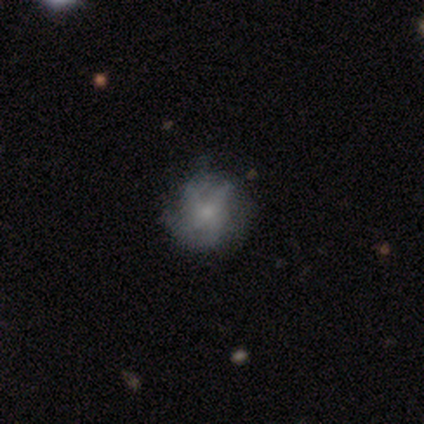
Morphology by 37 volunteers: Smooth or featured: featured or disk — 49% (smooth — 46%)
Edge-on disk: no — 94% (yes — 6%)
Bar: no — 76% (weak — 24%)
Spiral arms: yes — 76% (no — 24%)
Spiral winding: loose — 69% (tight — 15%)
Spiral arm count: 2 — 38% (can't tell — 31%)
Bulge size: small — 65% (moderate — 18%)
Merging: none — 66% (minor disturbance — 23%)